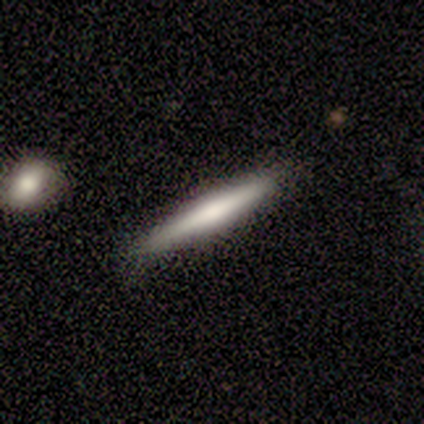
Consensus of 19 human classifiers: Q: Smooth or featured?
A: smooth (58%); runner-up: featured or disk (37%)
Q: How rounded?
A: cigar-shaped (100%)
Q: Merging?
A: none (67%); runner-up: minor disturbance (33%)